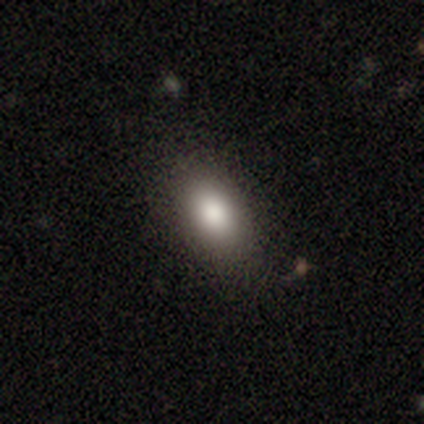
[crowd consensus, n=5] Smooth or featured?
  - smooth: 60% *
  - star or artifact: 40%
  - featured or disk: 0%
How rounded?
  - in between: 100% *
  - round: 0%
  - cigar-shaped: 0%
Merging?
  - none: 67% *
  - minor disturbance: 33%
  - major disturbance: 0%
  - merger: 0%